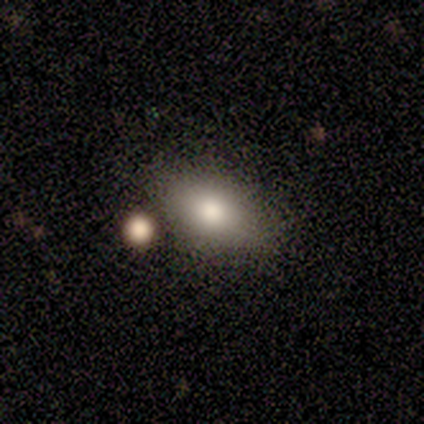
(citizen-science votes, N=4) Volunteers were most divided on "how rounded": in between: 75%, round: 25%, cigar-shaped: 0%. More confident: smooth or featured — smooth (100%); merging — none (100%).